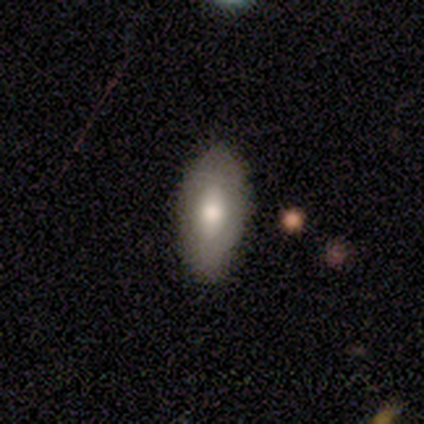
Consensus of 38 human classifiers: Smooth or featured: smooth — 68% (featured or disk — 29%)
How rounded: in between — 88% (cigar-shaped — 12%)
Merging: none — 76% (minor disturbance — 11%)